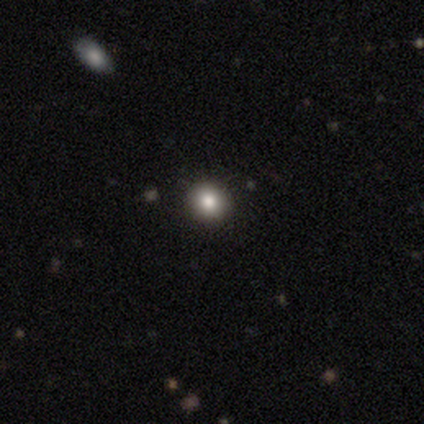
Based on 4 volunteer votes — smooth-or-featured: smooth: 100% | featured or disk: 0% | star or artifact: 0%
  how-rounded: round: 100% | in between: 0% | cigar-shaped: 0%
  merging: none: 100% | minor disturbance: 0% | major disturbance: 0% | merger: 0%